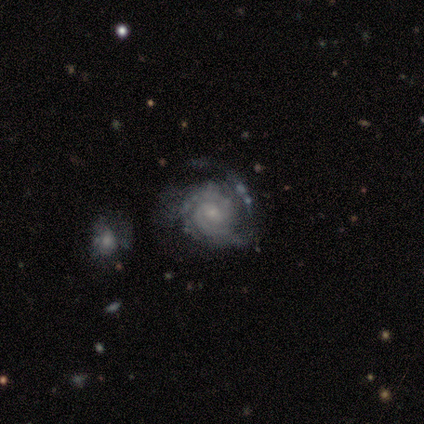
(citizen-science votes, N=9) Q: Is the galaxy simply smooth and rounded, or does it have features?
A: featured or disk — 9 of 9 (100%).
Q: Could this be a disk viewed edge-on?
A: no — 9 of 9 (100%).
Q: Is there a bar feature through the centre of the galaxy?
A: no — 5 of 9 (56%).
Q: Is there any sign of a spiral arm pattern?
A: yes — 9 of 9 (100%).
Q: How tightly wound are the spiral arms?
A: tight — 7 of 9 (78%).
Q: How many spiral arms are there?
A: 2 — 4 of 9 (44%).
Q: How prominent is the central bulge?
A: small — 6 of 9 (67%).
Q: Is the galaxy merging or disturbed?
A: none — 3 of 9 (33%, tied with major disturbance).